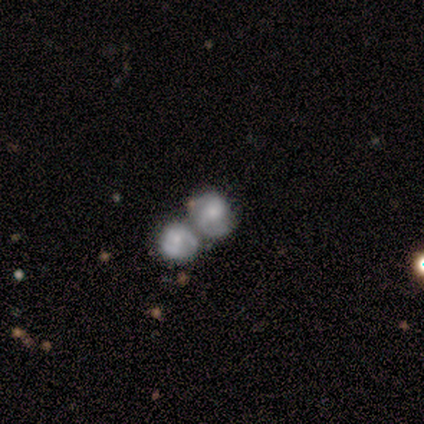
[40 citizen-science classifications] Smooth or featured?
  - featured or disk: 50% *
  - smooth: 45%
  - star or artifact: 5%
Edge-on disk?
  - no: 100% *
  - yes: 0%
Bar?
  - no: 75% *
  - weak: 25%
  - strong: 0%
Spiral arms?
  - yes: 60% *
  - no: 40%
Spiral winding?
  - tight: 58% *
  - medium: 25%
  - loose: 17%
Spiral arm count?
  - 2: 50% *
  - can't tell: 33%
  - 1: 17%
  - 3: 0%
  - 4: 0%
  - more than 4: 0%
Bulge size?
  - small: 50% *
  - moderate: 40%
  - none: 10%
  - dominant: 0%
  - large: 0%
Merging?
  - merger: 76% *
  - none: 18%
  - minor disturbance: 3%
  - major disturbance: 3%